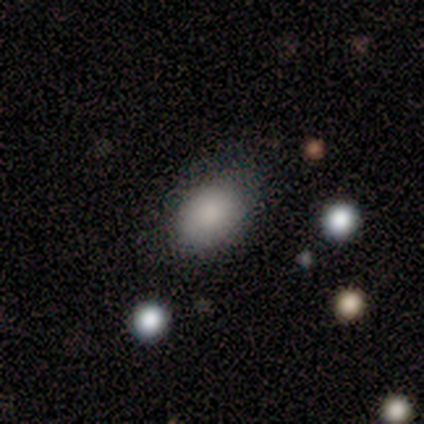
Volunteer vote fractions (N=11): Smooth or featured?
  - smooth: 100% *
  - featured or disk: 0%
  - star or artifact: 0%
How rounded?
  - in between: 100% *
  - round: 0%
  - cigar-shaped: 0%
Merging?
  - none: 73% *
  - minor disturbance: 27%
  - major disturbance: 0%
  - merger: 0%